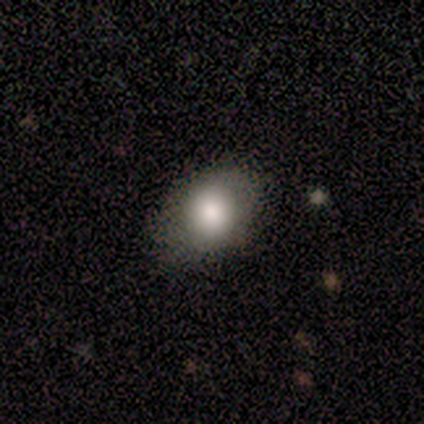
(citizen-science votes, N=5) Morphology: type=smooth (100%); roundness=in between (60%); merging=none (60%).